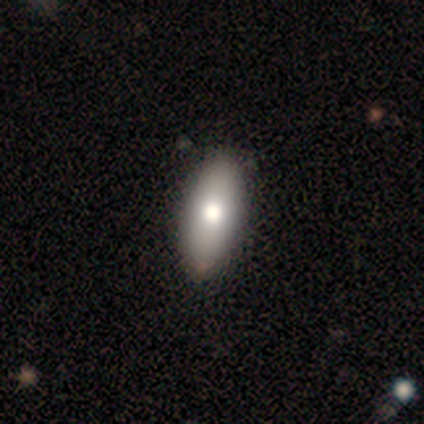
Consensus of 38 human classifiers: Smooth or featured? 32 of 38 (84%) said smooth. How rounded? 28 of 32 (88%) said in between. Merging? 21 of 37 (57%) said none.